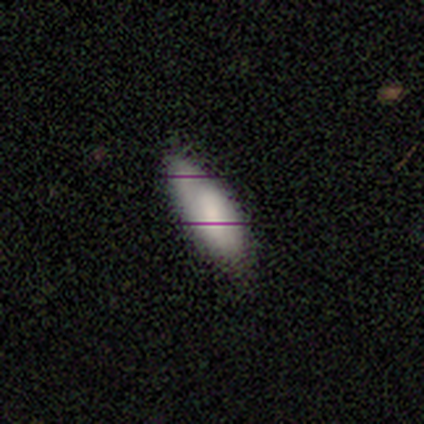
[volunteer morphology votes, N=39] smooth-or-featured: smooth: 79% | featured or disk: 10% | star or artifact: 10%
  how-rounded: in between: 77% | cigar-shaped: 23% | round: 0%
  merging: none: 80% | minor disturbance: 20% | major disturbance: 0% | merger: 0%